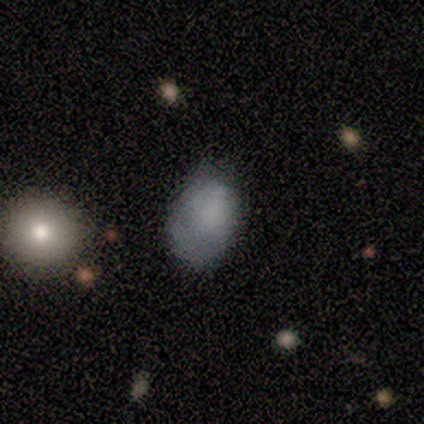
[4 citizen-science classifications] smooth 75%, featured or disk 25%, star or artifact 0%. Down the decision tree: how rounded — in between (67%); merging — none (50%).